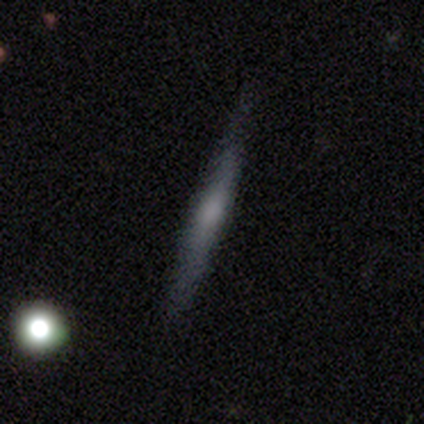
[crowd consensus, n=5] Smooth or featured?
  - smooth: 60% *
  - featured or disk: 40%
  - star or artifact: 0%
How rounded?
  - cigar-shaped: 100% *
  - round: 0%
  - in between: 0%
Merging?
  - none: 100% *
  - minor disturbance: 0%
  - major disturbance: 0%
  - merger: 0%